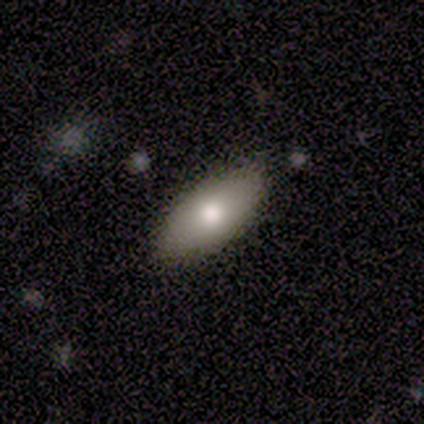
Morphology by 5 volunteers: smooth_or_featured: smooth (p=0.80) [alt: featured or disk p=0.20]
how_rounded: in between (p=1.00)
merging: none (p=0.80) [alt: minor disturbance p=0.20]